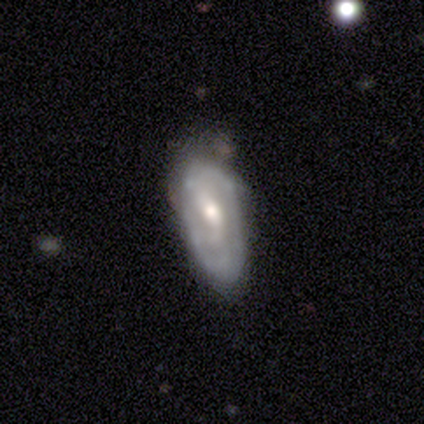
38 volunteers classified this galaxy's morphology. Smooth or featured?
  - featured or disk: 74% *
  - smooth: 26%
  - star or artifact: 0%
Edge-on disk?
  - no: 86% *
  - yes: 14%
Bar?
  - weak: 54% *
  - no: 33%
  - strong: 12%
Spiral arms?
  - yes: 62% *
  - no: 38%
Spiral winding?
  - loose: 40% *
  - medium: 33%
  - tight: 27%
Spiral arm count?
  - 2: 73% *
  - can't tell: 20%
  - 3: 7%
  - 1: 0%
  - 4: 0%
  - more than 4: 0%
Bulge size?
  - moderate: 75% *
  - small: 25%
  - dominant: 0%
  - large: 0%
  - none: 0%
Merging?
  - none: 61% *
  - minor disturbance: 32%
  - major disturbance: 8%
  - merger: 0%